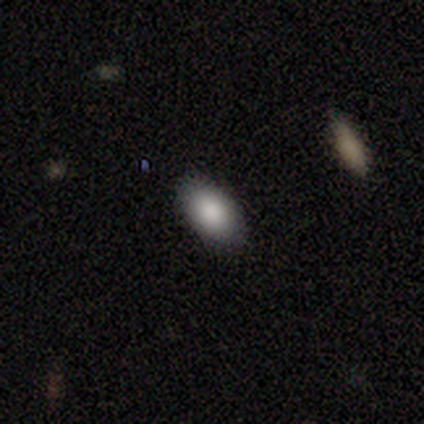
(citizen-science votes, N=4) smooth_or_featured: smooth (p=1.00)
how_rounded: in between (p=1.00)
merging: none (p=0.75) [alt: minor disturbance p=0.25]